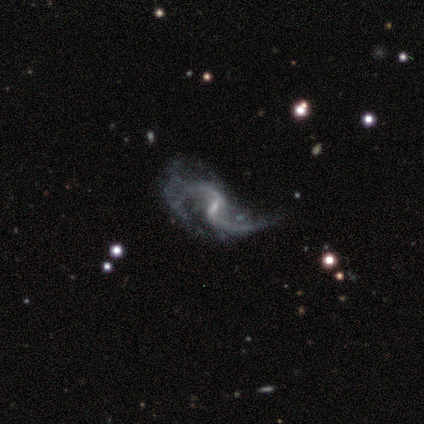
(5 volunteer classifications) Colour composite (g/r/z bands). It shows a featured or disk galaxy (100%) with a weak bar (60%), 2 (80%) loose (80%) spiral arms (100%) and a small central bulge (80%). Merging: minor disturbance (40%, tied with major disturbance).